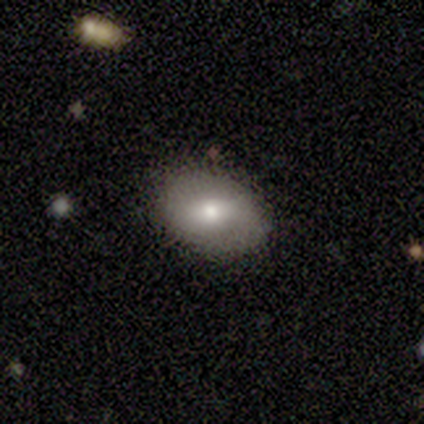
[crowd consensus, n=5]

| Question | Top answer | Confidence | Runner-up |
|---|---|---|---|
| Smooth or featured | smooth | 100% | — |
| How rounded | round | 60% | in between (40%) |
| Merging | none | 80% | minor disturbance (20%) |